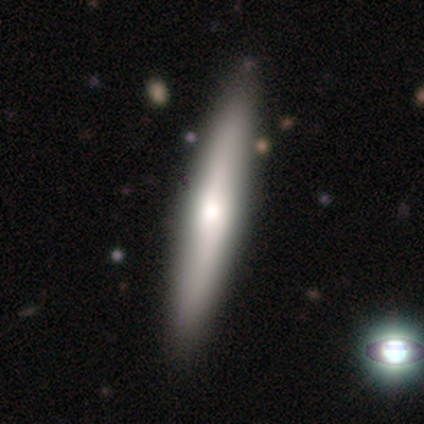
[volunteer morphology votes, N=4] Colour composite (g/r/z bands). It shows a featured or disk galaxy (100%) viewed edge-on (75%) with a boxy central bulge (67%). Merging: none (100%).